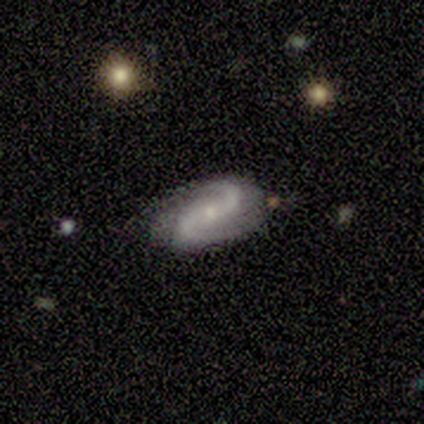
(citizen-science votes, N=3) This is clearly a featured or disk galaxy (100%). It is clearly not viewed edge-on (100%). Bar: likely no (67%). Spiral arm pattern: clearly yes (100%). Spiral arm count: clearly 2 (100%). Spiral winding: likely medium (67%). Central bulge: clearly small (100%). Merging: marginally none (33%, tied with minor disturbance and major disturbance).